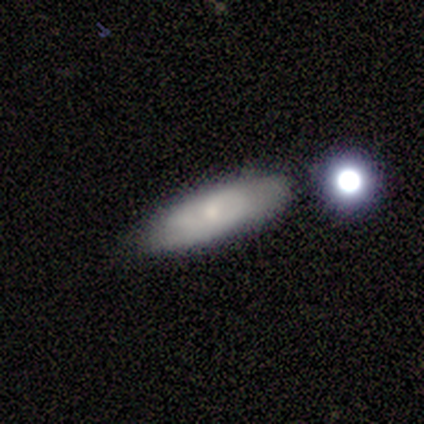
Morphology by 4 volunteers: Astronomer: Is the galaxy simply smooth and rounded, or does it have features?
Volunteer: smooth — 50%, tied with featured or disk at 50%.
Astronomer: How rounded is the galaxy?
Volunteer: in between — 50%, tied with cigar-shaped at 50%.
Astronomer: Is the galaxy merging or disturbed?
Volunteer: none — 50%.